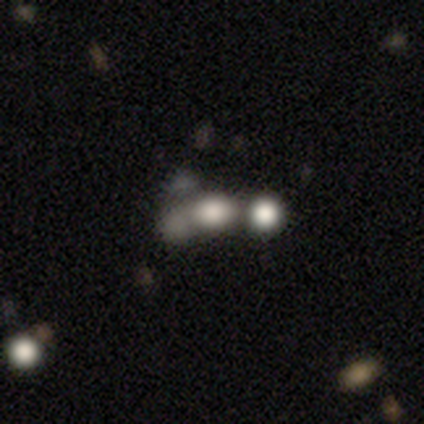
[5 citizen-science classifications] smooth-or-featured: smooth: 80% | featured or disk: 20% | star or artifact: 0%
  how-rounded: round: 50% (tied) | in between: 50% (tied) | cigar-shaped: 0%
  merging: merger: 80% | none: 20% | minor disturbance: 0% | major disturbance: 0%